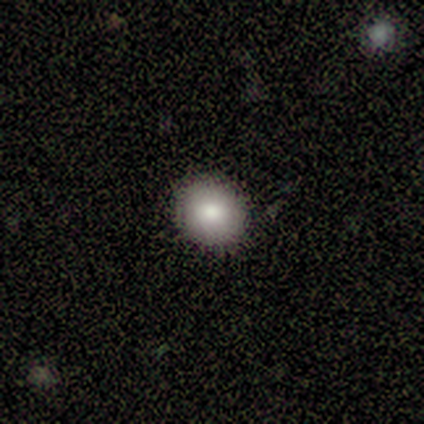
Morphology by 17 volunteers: Overall: smooth (100%). How rounded: round (82%). Merging: none (94%).